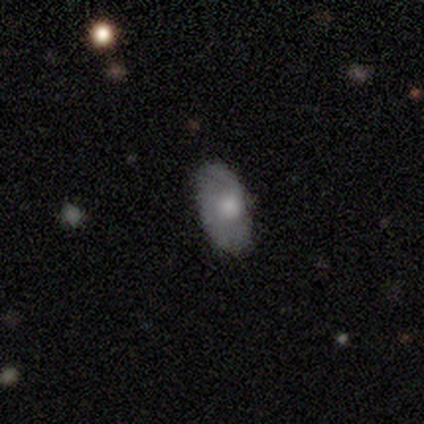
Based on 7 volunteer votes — Morphology: type=featured or disk (71%); edge-on=no (100%); bar=no (100%); spiral arms=no (80%); bulge=moderate (60%); merging=none (71%).